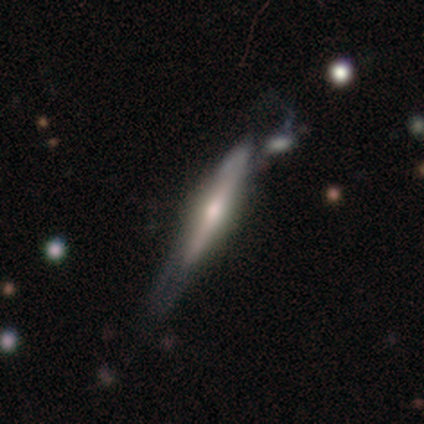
This appears to be a featured or disk galaxy (71%) viewed edge-on (91%) with a rounded central bulge (77%). Merging: merger (25%).